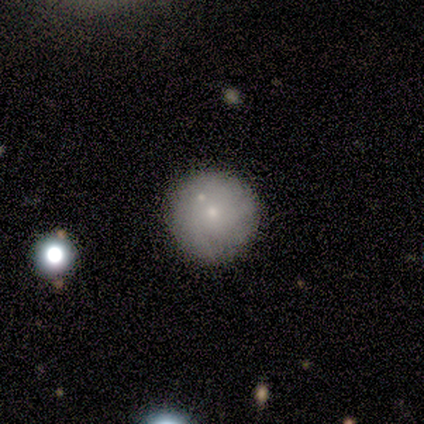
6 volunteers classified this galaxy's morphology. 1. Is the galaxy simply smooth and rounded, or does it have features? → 83% smooth, 17% star or artifact, 0% featured or disk.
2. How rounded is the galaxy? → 100% round, 0% in between, 0% cigar-shaped.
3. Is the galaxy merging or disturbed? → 60% none, 40% minor disturbance, 0% major disturbance, 0% merger.